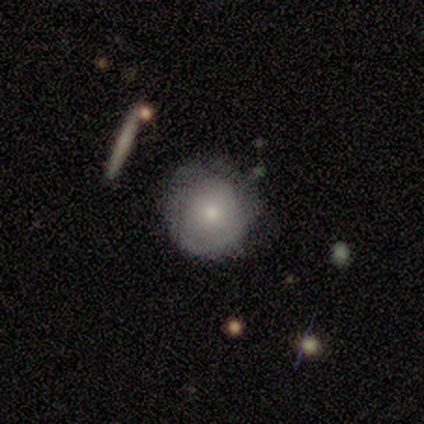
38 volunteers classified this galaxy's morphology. Smooth or featured?
  - smooth: 55% *
  - featured or disk: 37%
  - star or artifact: 8%
How rounded?
  - round: 100% *
  - in between: 0%
  - cigar-shaped: 0%
Merging?
  - none: 71% *
  - minor disturbance: 23%
  - major disturbance: 6%
  - merger: 0%